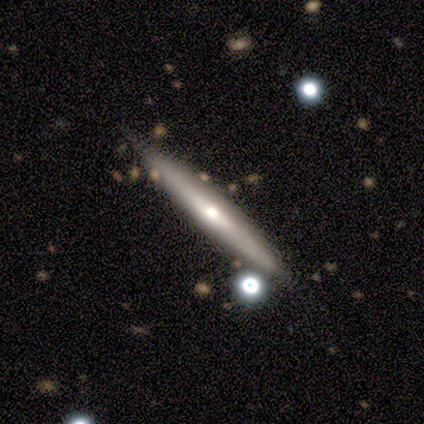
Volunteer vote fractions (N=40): smooth_or_featured: featured or disk (p=0.78) [alt: smooth p=0.23]
disk_edge_on: yes (p=0.97) [alt: no p=0.03]
edge_on_bulge: rounded (p=0.80) [alt: boxy p=0.13]
merging: none (p=0.80) [alt: minor disturbance p=0.20]